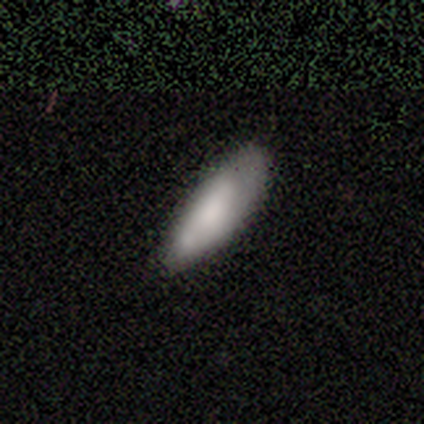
Morphology: type=smooth (82%); roundness=in between (58%); merging=none (50%).